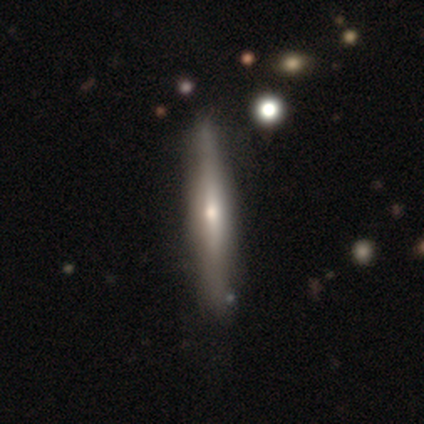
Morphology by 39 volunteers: This appears to be a featured or disk galaxy (59%) viewed edge-on (96%) with a rounded central bulge (82%). Merging: none (45%).